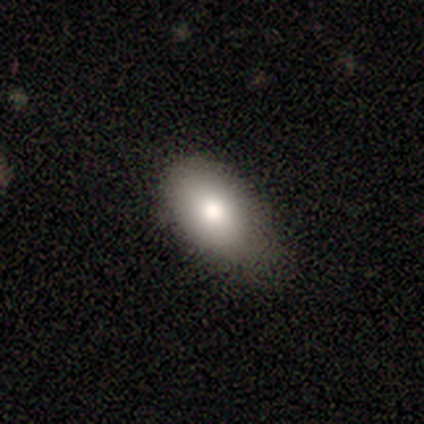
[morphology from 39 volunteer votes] A smooth galaxy with no disk features (87%) that is in between round and cigar-shaped (91%). Merging: none (62%).